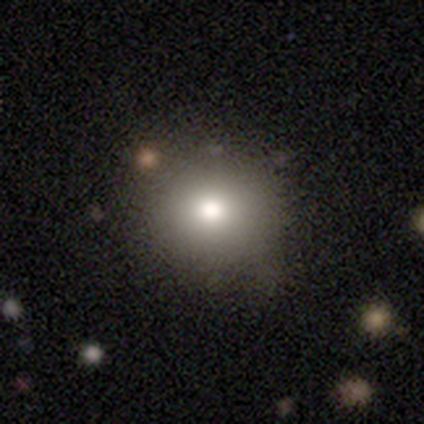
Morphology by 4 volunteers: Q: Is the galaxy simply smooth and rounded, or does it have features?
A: smooth — 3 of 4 (75%).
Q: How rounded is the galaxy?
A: round — 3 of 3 (100%).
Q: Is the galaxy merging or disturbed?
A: none — 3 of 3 (100%).